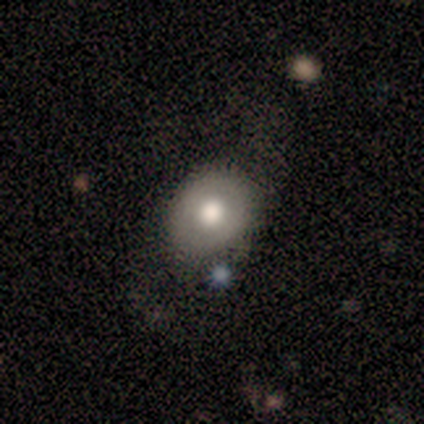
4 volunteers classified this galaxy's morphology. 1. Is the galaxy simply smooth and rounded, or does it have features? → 75% smooth, 25% star or artifact, 0% featured or disk.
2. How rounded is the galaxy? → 67% in between, 33% round, 0% cigar-shaped.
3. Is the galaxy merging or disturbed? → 100% none, 0% minor disturbance, 0% major disturbance, 0% merger.